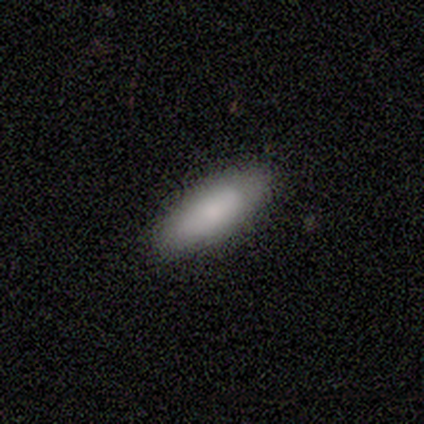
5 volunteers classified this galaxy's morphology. This appears to be a smooth galaxy with no disk features (100%) that is in between round and cigar-shaped (60%). Merging: none (100%).